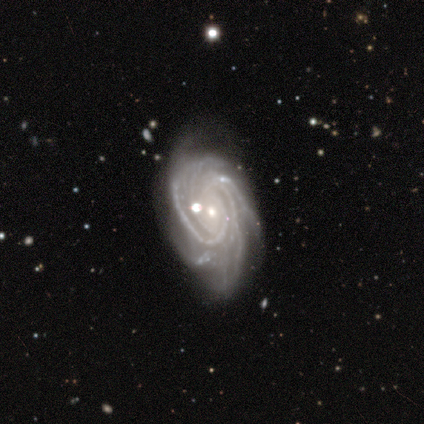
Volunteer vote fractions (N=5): This appears to be a featured or disk galaxy (100%) with no bar (100%), 3 (60%) tight (60%) spiral arms (100%) and a small central bulge (80%). Merging: minor disturbance (40%).